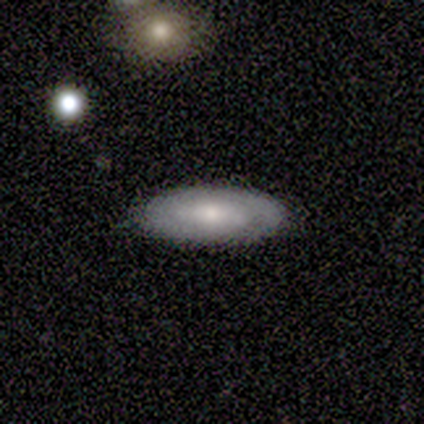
Smooth or featured: featured or disk — 60% (smooth — 20%)
Edge-on disk: no — 100%
Bar: no — 100%
Spiral arms: yes — 67% (no — 33%)
Spiral winding: tight — 50% (tied with loose — 50%)
Spiral arm count: can't tell — 100%
Bulge size: small — 67% (none — 33%)
Merging: none — 75% (minor disturbance — 25%)